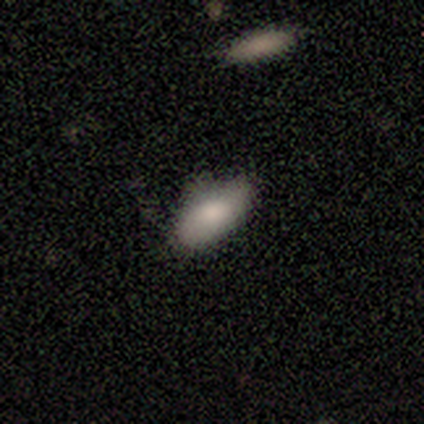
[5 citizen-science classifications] smooth-or-featured: smooth: 80% | featured or disk: 20% | star or artifact: 0%
  how-rounded: in between: 100% | round: 0% | cigar-shaped: 0%
  merging: none: 60% | minor disturbance: 40% | major disturbance: 0% | merger: 0%